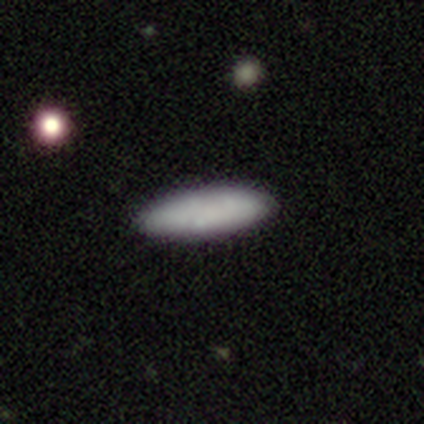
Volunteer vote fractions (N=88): Smooth or featured: smooth — 78% (featured or disk — 12%)
How rounded: in between — 54% (cigar-shaped — 43%)
Merging: none — 91% (minor disturbance — 8%)